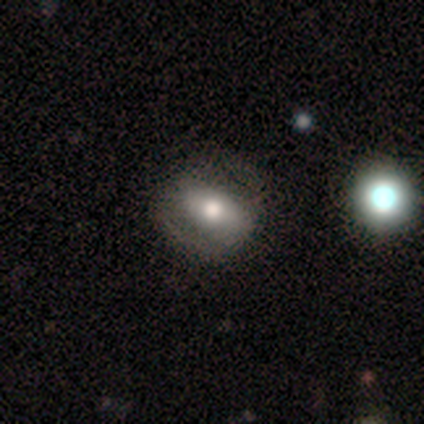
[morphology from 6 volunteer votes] Volunteers were most divided on "smooth or featured" (2-way tie): smooth: 50%, featured or disk: 50%, star or artifact: 0%. More confident: how rounded — in between (100%); merging — none (67%).